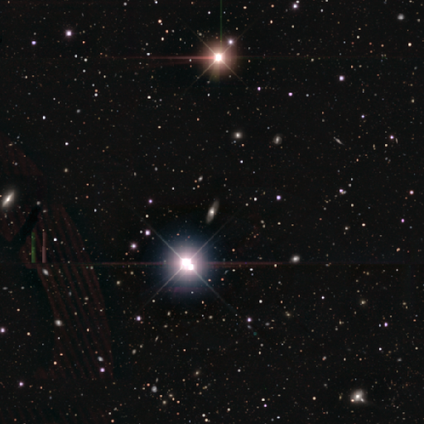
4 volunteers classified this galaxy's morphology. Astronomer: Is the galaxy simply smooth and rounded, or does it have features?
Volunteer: featured or disk — 50%, tied with star or artifact at 50%.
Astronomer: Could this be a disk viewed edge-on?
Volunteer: yes — 50%, tied with no at 50%.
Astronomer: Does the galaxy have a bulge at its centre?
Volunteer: rounded — 100%.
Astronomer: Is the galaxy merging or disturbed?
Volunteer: none — 100%.